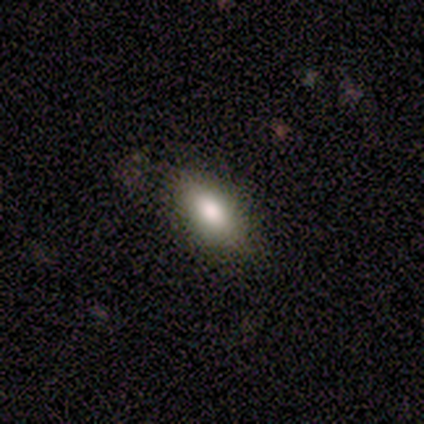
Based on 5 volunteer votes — A smooth galaxy with no disk features (60%) that is in between round and cigar-shaped (100%). Merging: none (75%).